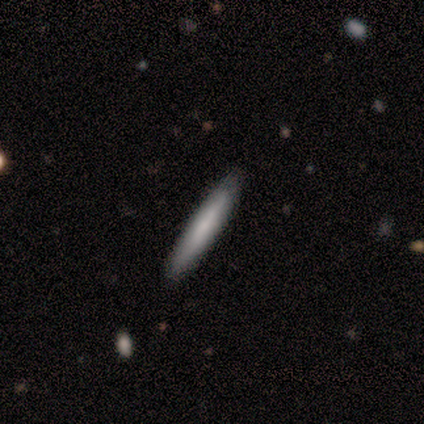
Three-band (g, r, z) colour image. It shows a smooth galaxy with no disk features (100%) that is cigar-shaped (100%). Merging: none (100%).